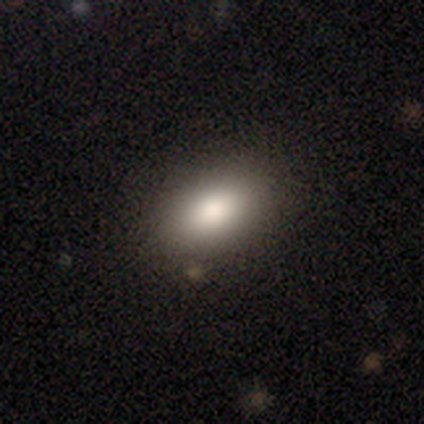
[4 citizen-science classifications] Volunteers were most divided on "smooth or featured": smooth: 75%, featured or disk: 25%, star or artifact: 0%. More confident: how rounded — in between (100%); merging — none (100%).